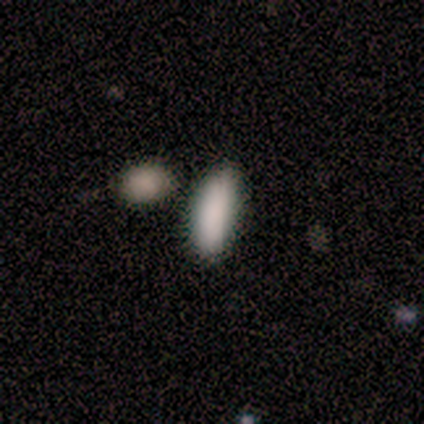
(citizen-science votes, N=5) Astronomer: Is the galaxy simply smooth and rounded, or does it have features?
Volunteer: smooth — 100%.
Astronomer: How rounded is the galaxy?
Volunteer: cigar-shaped — 60% (runner-up: in between, 40%).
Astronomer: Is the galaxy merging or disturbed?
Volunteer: none — 80%.